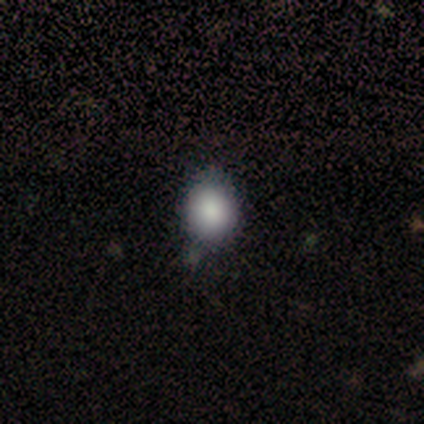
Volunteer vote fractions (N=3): A smooth galaxy with no disk features (100%) that is in between round and cigar-shaped (100%).

Vote fractions:
- Smooth or featured? smooth: 100% / featured or disk: 0% / star or artifact: 0%
- How rounded? in between: 100% / round: 0% / cigar-shaped: 0%
- Merging? none: 67% / minor disturbance: 33% / major disturbance: 0% / merger: 0%